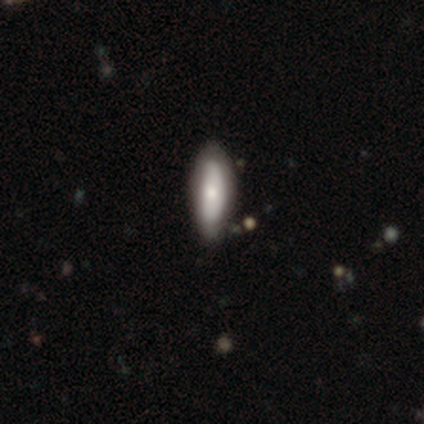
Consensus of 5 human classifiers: A featured or disk galaxy (60%) viewed edge-on (67%) with a rounded central bulge (100%).

Vote fractions:
- Smooth or featured? featured or disk: 60% / smooth: 40% / star or artifact: 0%
- Edge-on disk? yes: 67% / no: 33%
- Edge-on bulge? rounded: 100% / boxy: 0% / none: 0%
- Merging? none: 80% / minor disturbance: 20% / major disturbance: 0% / merger: 0%